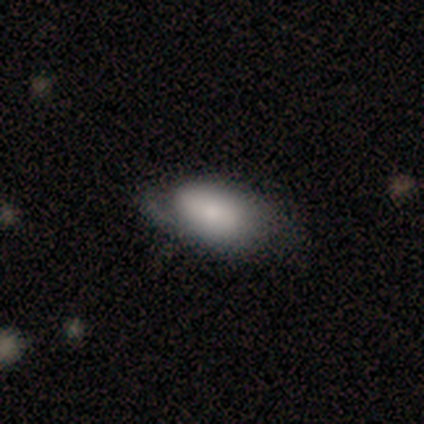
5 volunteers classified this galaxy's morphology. smooth-or-featured: smooth: 80% | featured or disk: 20% | star or artifact: 0%
  how-rounded: in between: 100% | round: 0% | cigar-shaped: 0%
  merging: none: 80% | major disturbance: 20% | minor disturbance: 0% | merger: 0%